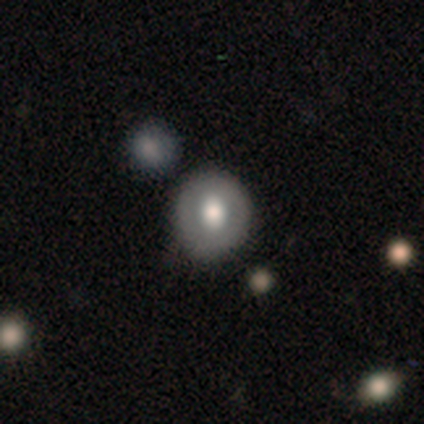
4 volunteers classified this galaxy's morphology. A smooth galaxy with no disk features (75%) that is round (100%). Merging: none (75%).